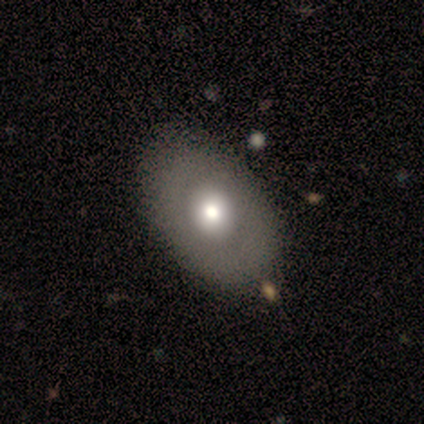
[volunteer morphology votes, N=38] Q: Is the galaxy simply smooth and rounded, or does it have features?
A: smooth — 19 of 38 (50%).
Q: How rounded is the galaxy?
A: in between — 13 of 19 (68%).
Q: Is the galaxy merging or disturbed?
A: none — 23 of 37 (62%).